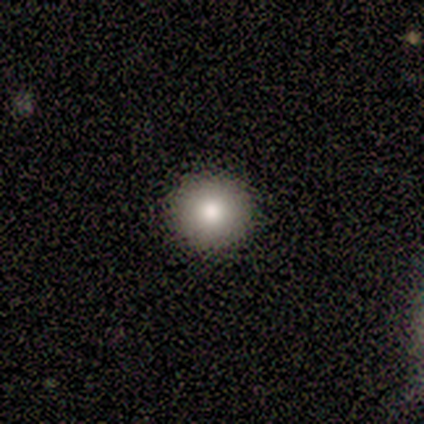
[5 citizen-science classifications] A smooth galaxy with no disk features (80%) that is round (100%). Merging: none (100%).